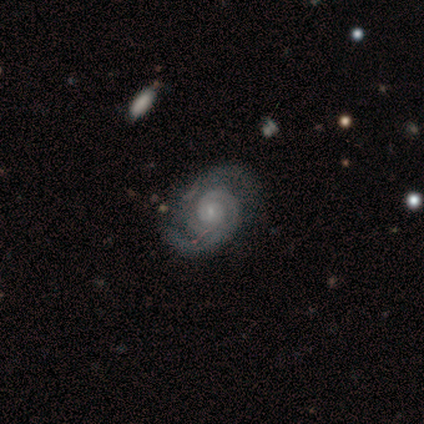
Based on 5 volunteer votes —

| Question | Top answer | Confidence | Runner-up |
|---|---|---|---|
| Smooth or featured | featured or disk | 100% | — |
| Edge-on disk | no | 80% | yes (20%) |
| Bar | weak | 75% | no (25%) |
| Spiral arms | yes | 100% | — |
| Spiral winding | tight | 50% | tied: medium (50%) |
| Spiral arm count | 2 | 100% | — |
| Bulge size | small | 100% | — |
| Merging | none | 40% | tied: major disturbance (40%) |